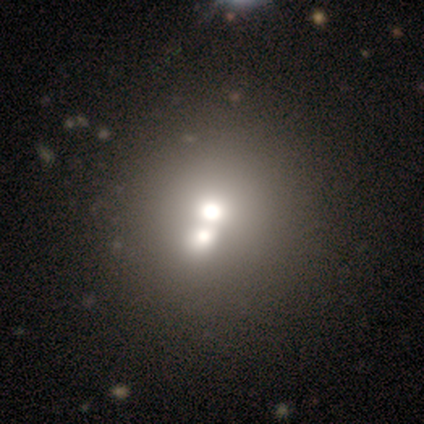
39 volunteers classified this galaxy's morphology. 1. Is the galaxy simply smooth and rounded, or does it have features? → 69% smooth, 31% featured or disk, 0% star or artifact.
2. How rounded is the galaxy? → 85% round, 15% in between, 0% cigar-shaped.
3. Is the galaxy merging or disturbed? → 77% merger, 18% none, 0% minor disturbance, 0% major disturbance.